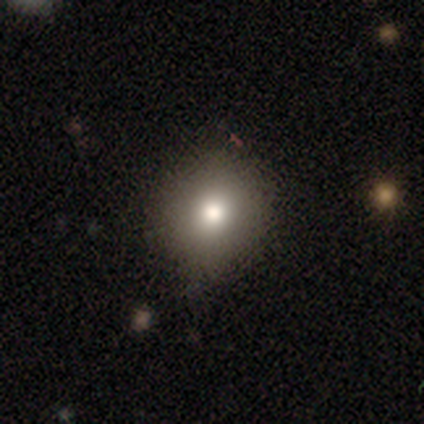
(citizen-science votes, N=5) A smooth galaxy with no disk features (80%) that is round (100%).

Vote fractions:
- Smooth or featured? smooth: 80% / featured or disk: 20% / star or artifact: 0%
- How rounded? round: 100% / in between: 0% / cigar-shaped: 0%
- Merging? none: 100% / minor disturbance: 0% / major disturbance: 0% / merger: 0%